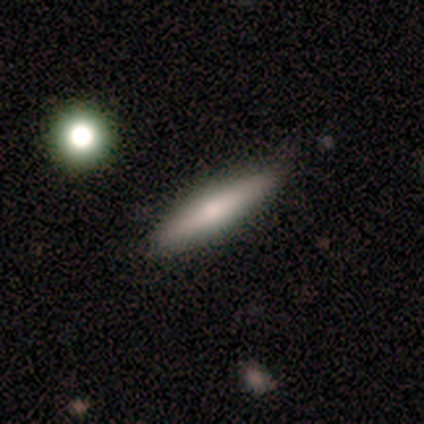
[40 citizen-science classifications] smooth_or_featured: smooth (p=0.62) [alt: featured or disk p=0.30]
how_rounded: cigar-shaped (p=0.92) [alt: in between p=0.08]
merging: none (p=0.86) [alt: minor disturbance p=0.08]